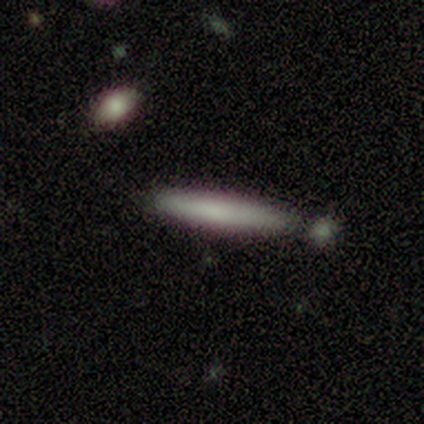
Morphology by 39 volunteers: smooth-or-featured: smooth: 77% | featured or disk: 21% | star or artifact: 3%
  how-rounded: cigar-shaped: 97% | in between: 3% | round: 0%
  merging: none: 79% | merger: 13% | minor disturbance: 5% | major disturbance: 3%